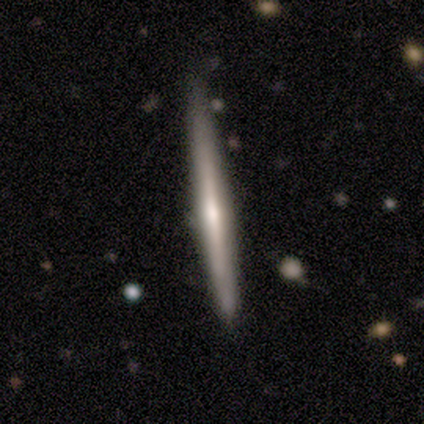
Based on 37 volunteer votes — Q: Smooth or featured?
A: featured or disk (57%); runner-up: smooth (32%)
Q: Edge-on disk?
A: yes (100%)
Q: Edge-on bulge?
A: rounded (48%); runner-up: none (38%)
Q: Merging?
A: none (85%); runner-up: minor disturbance (12%)